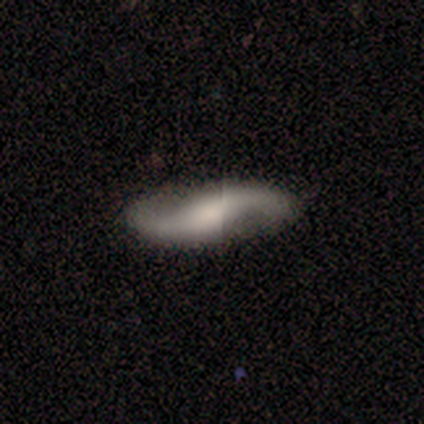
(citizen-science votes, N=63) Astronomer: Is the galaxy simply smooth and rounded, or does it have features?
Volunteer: featured or disk — 78%.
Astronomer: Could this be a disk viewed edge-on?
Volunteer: no — 90%.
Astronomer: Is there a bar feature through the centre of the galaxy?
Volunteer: no — 55% (runner-up: weak, 30%).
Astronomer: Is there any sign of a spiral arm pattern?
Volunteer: yes — 95%.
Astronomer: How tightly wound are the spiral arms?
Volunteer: loose — 83%.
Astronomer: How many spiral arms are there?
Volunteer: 2 — 98%.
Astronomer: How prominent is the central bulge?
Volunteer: large — 32% (runner-up: moderate, 30%).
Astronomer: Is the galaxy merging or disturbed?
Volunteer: none — 81%.